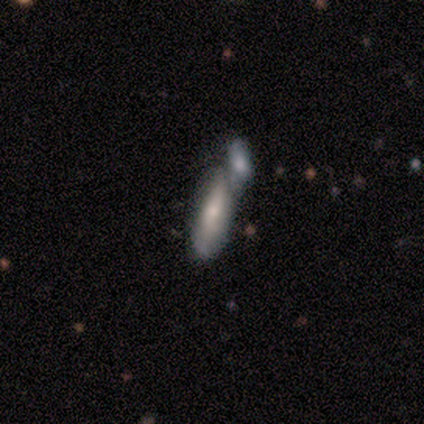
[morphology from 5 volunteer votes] This is clearly a smooth galaxy (80%). How rounded: likely in between (75%). Merging: clearly merger (80%).